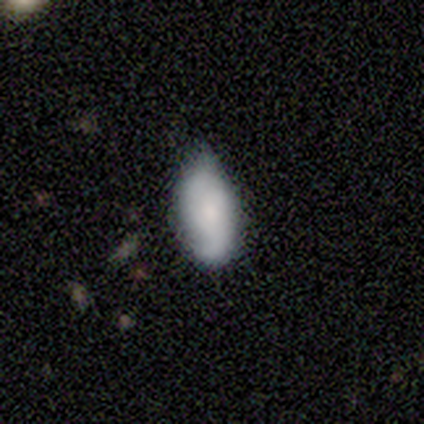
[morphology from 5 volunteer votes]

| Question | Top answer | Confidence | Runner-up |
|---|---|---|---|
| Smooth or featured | smooth | 60% | featured or disk (40%) |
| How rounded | in between | 100% | — |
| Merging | minor disturbance | 60% | none (20%) |